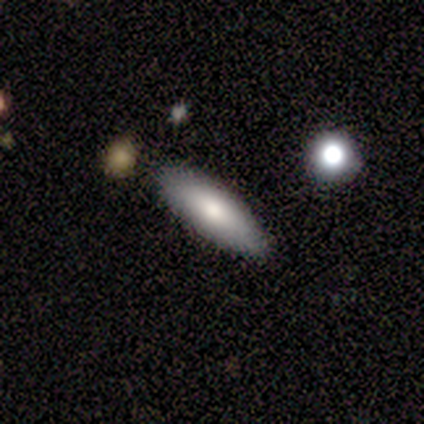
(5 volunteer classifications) smooth-or-featured: smooth: 80% | star or artifact: 20% | featured or disk: 0%
  how-rounded: in between: 100% | round: 0% | cigar-shaped: 0%
  merging: none: 75% | minor disturbance: 25% | major disturbance: 0% | merger: 0%